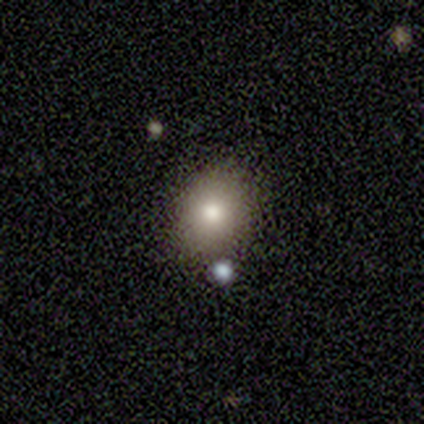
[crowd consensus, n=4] Smooth or featured? smooth (100%)
How rounded? round (75%)
Merging? none (75%)